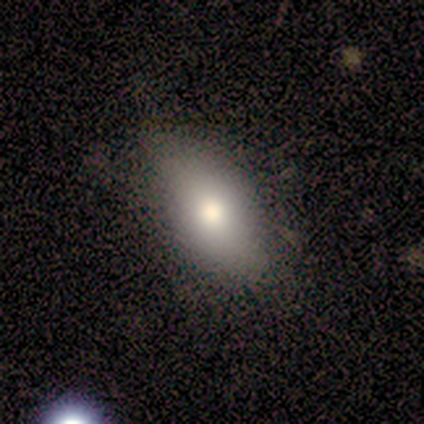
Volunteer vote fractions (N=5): Volunteers were most divided on "merging": none: 80%, minor disturbance: 20%, major disturbance: 0%, merger: 0%. More confident: smooth or featured — smooth (100%); how rounded — in between (100%).